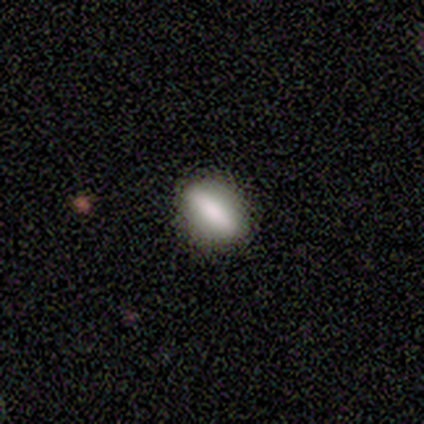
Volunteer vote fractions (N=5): A smooth galaxy with no disk features (80%) that is in between round and cigar-shaped (100%).

Vote fractions:
- Smooth or featured? smooth: 80% / featured or disk: 20% / star or artifact: 0%
- How rounded? in between: 100% / round: 0% / cigar-shaped: 0%
- Merging? none: 100% / minor disturbance: 0% / major disturbance: 0% / merger: 0%